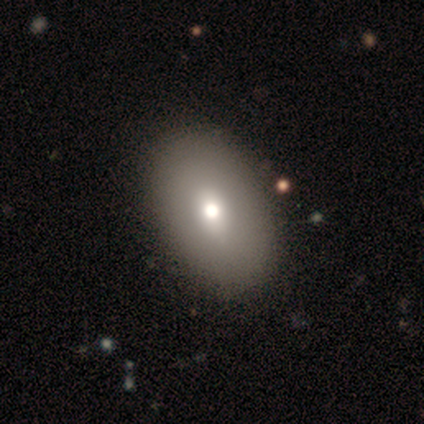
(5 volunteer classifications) Smooth or featured?
  - smooth: 40% * (tied)
  - featured or disk: 40% * (tied)
  - star or artifact: 20%
How rounded?
  - in between: 100% *
  - round: 0%
  - cigar-shaped: 0%
Merging?
  - none: 100% *
  - minor disturbance: 0%
  - major disturbance: 0%
  - merger: 0%